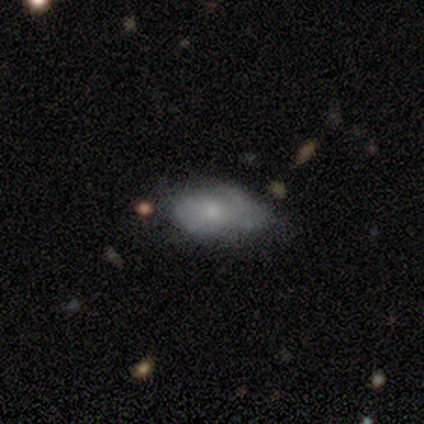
A smooth galaxy with no disk features (50%) that is in between round and cigar-shaped (91%). Merging: none (52%).